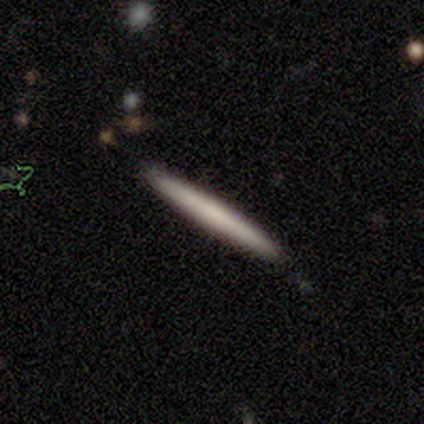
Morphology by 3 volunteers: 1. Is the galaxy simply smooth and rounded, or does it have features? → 100% smooth, 0% featured or disk, 0% star or artifact.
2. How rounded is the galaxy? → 100% cigar-shaped, 0% round, 0% in between.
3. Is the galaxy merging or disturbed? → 100% none, 0% minor disturbance, 0% major disturbance, 0% merger.